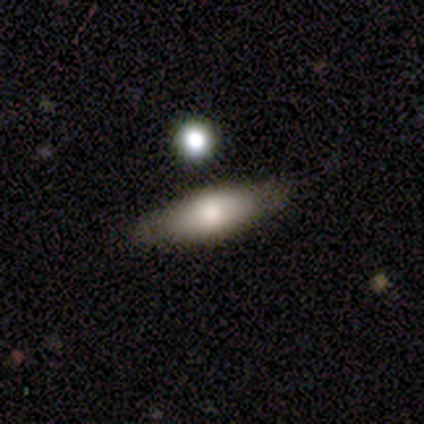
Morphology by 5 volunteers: Smooth or featured? smooth (80%)
How rounded? in between (75%)
Merging? none (50%)